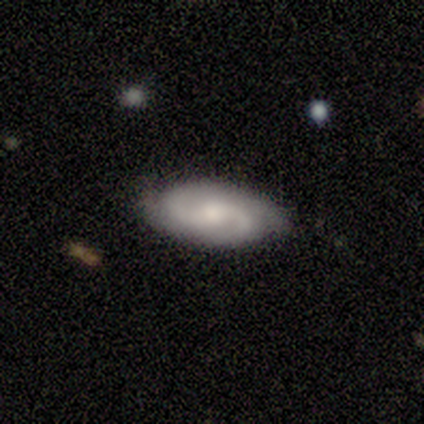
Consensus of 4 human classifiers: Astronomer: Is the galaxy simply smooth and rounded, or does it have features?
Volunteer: featured or disk — 75%.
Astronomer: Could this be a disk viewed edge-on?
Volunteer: no — 100%.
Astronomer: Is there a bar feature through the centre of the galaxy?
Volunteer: weak — 67%.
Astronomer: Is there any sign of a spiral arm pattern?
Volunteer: yes — 100%.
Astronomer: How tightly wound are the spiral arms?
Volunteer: tight — 33%, tied with medium and loose at 33%.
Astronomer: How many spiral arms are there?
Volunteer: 2 — 100%.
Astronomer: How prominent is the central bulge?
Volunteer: moderate — 67%.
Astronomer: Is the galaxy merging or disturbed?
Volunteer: none — 100%.